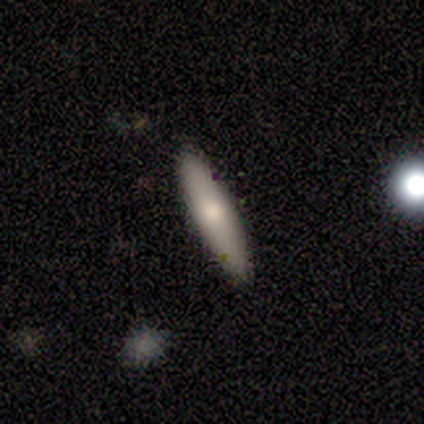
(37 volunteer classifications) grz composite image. It shows a smooth galaxy with no disk features (68%) that is cigar-shaped (64%). Merging: none (94%).